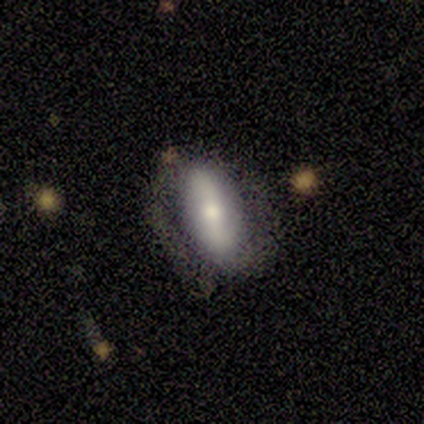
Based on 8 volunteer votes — A smooth galaxy with no disk features (50%, tied with featured or disk) that is in between round and cigar-shaped (50%, tied with cigar-shaped). Merging: none (75%).